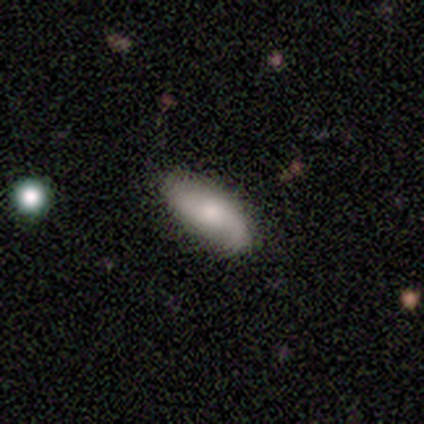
A smooth galaxy with no disk features (46%) that is in between round and cigar-shaped (94%).

Vote fractions:
- Smooth or featured? smooth: 46% / featured or disk: 43% / star or artifact: 11%
- How rounded? in between: 94% / cigar-shaped: 6% / round: 0%
- Merging? none: 79% / minor disturbance: 18% / major disturbance: 3% / merger: 0%